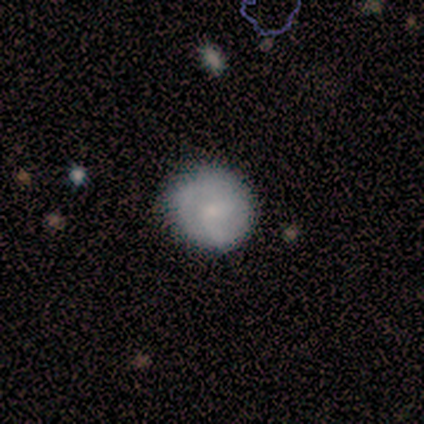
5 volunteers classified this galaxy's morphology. A smooth galaxy with no disk features (60%) that is round (100%). Merging: none (75%).